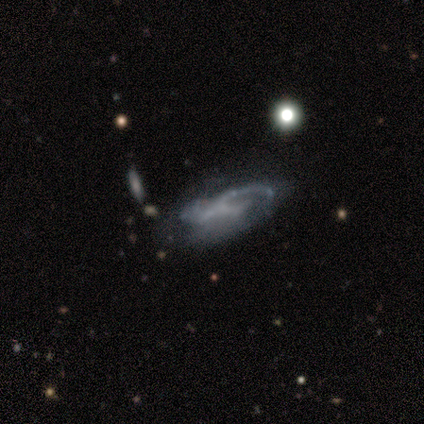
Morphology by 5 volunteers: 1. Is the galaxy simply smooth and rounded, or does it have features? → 80% featured or disk, 20% smooth, 0% star or artifact.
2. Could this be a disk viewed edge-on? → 100% no, 0% yes.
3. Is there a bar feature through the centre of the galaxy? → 50% weak (tied), 50% no (tied), 0% strong.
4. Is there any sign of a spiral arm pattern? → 50% yes (tied), 50% no (tied).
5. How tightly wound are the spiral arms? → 100% loose, 0% tight, 0% medium.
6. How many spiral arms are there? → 50% 2 (tied), 50% can't tell (tied), 0% 1, 0% 3, 0% 4, 0% more than 4.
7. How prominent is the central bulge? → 100% none, 0% dominant, 0% large, 0% moderate, 0% small.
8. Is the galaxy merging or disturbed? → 60% major disturbance, 40% minor disturbance, 0% none, 0% merger.